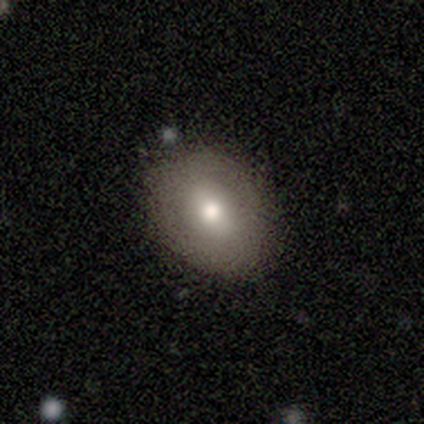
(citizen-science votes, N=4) Morphology: type=smooth (75%); roundness=in between (100%); merging=none (100%).